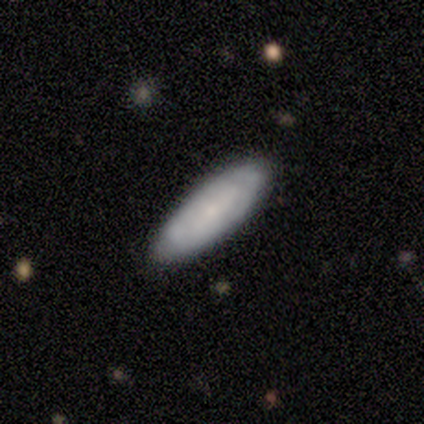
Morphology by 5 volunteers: This appears to be a smooth galaxy with no disk features (40%, tied with featured or disk) that is in between round and cigar-shaped (100%). Merging: none (100%).